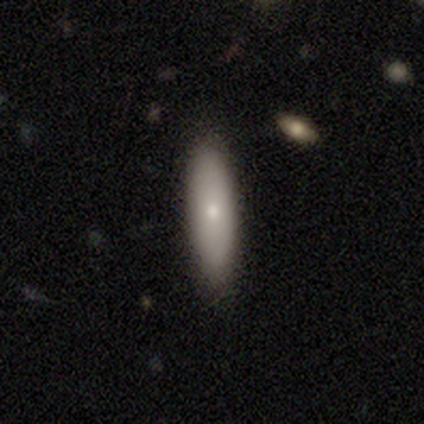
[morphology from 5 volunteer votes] Q: Smooth or featured?
A: smooth (80%); runner-up: featured or disk (20%)
Q: How rounded?
A: in between (50%); tied with: cigar-shaped (50%)
Q: Merging?
A: none (80%); runner-up: merger (20%)